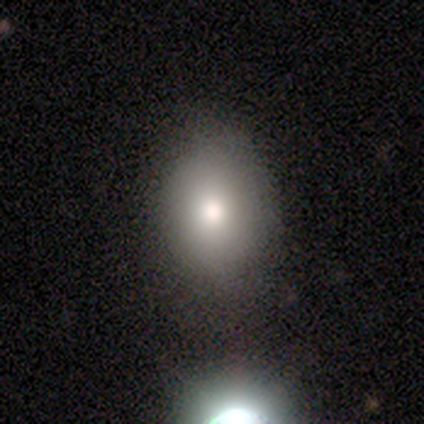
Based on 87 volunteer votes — smooth_or_featured: smooth (p=0.79) [alt: featured or disk p=0.10]
how_rounded: in between (p=0.54) [alt: round p=0.46]
merging: none (p=0.79) [alt: minor disturbance p=0.18]